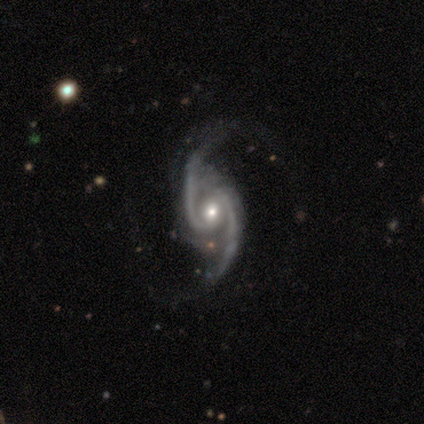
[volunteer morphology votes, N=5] smooth_or_featured: featured or disk (p=1.00)
disk_edge_on: no (p=0.80) [alt: yes p=0.20]
bar: weak (p=0.75) [alt: no p=0.25]
has_spiral_arms: yes (p=1.00)
spiral_winding: medium (p=0.50) [alt: tight p=0.25]
spiral_arm_count: 2 (p=1.00)
bulge_size: small (p=0.75) [alt: moderate p=0.25]
merging: none (p=0.80) [alt: major disturbance p=0.20]